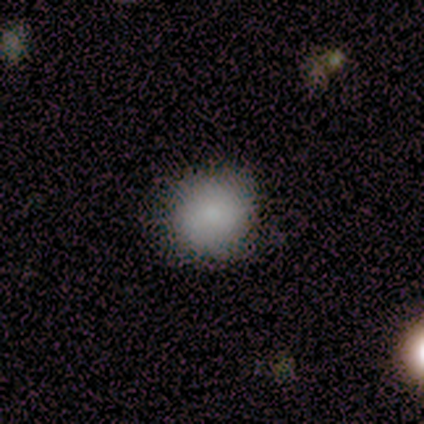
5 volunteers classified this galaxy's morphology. A smooth galaxy with no disk features (60%) that is round (100%). Merging: none (100%).